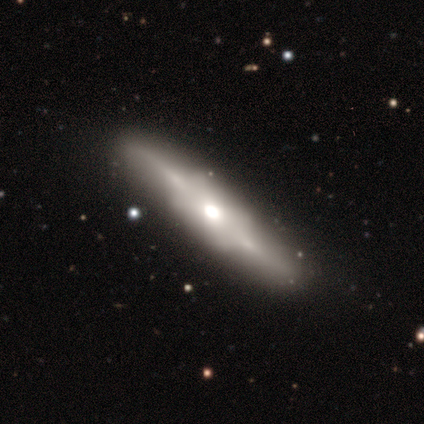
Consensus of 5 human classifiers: smooth-or-featured: featured or disk: 60% | smooth: 40% | star or artifact: 0%
  disk-edge-on: yes: 100% | no: 0%
    edge-on-bulge: rounded: 67% | boxy: 33% | none: 0%
  merging: none: 100% | minor disturbance: 0% | major disturbance: 0% | merger: 0%